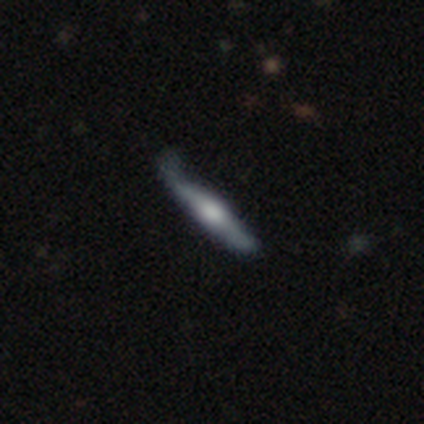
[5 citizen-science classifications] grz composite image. It shows a featured or disk galaxy (100%) viewed edge-on (80%) with a rounded central bulge (100%). Merging: minor disturbance (60%).